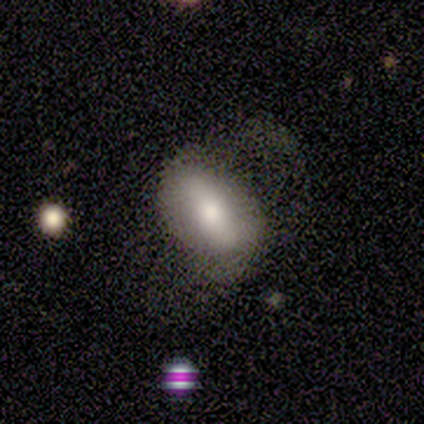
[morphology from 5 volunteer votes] Q: Smooth or featured?
A: smooth (80%); runner-up: star or artifact (20%)
Q: How rounded?
A: in between (100%)
Q: Merging?
A: none (50%); tied with: major disturbance (50%)